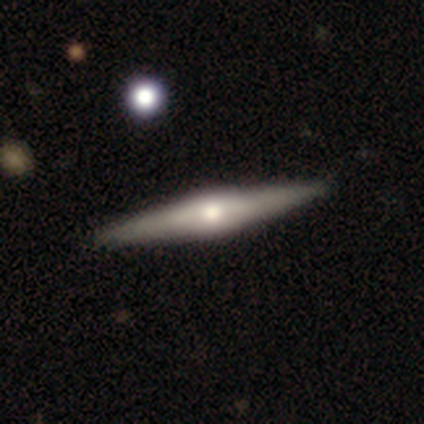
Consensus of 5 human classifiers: Smooth or featured? 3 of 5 (60%) said featured or disk. Edge-on disk? 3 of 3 (100%) said yes. Edge-on bulge? 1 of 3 (33%, tied with none and rounded) said boxy. Merging? 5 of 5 (100%) said none.